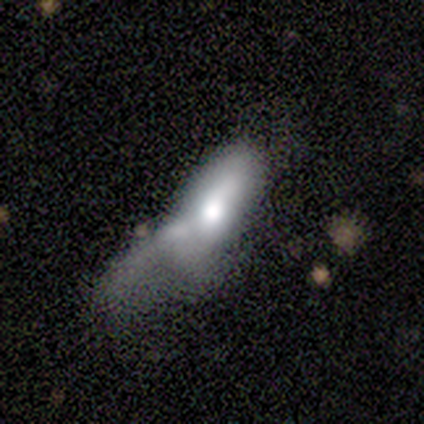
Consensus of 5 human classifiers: Overall: smooth (60%; featured or disk 40%). How rounded: in between (67%; cigar-shaped 33%). Merging: minor disturbance (40%, tied with major disturbance).